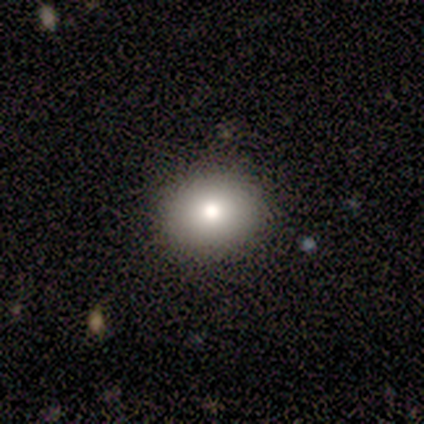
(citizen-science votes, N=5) A smooth galaxy with no disk features (80%) that is round (50%, tied with in between).

Vote fractions:
- Smooth or featured? smooth: 80% / star or artifact: 20% / featured or disk: 0%
- How rounded? round: 50% (tied) / in between: 50% (tied) / cigar-shaped: 0%
- Merging? none: 100% / minor disturbance: 0% / major disturbance: 0% / merger: 0%